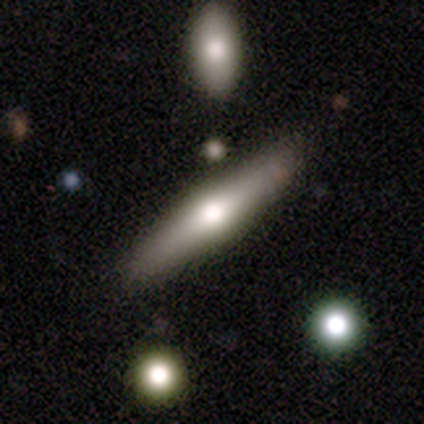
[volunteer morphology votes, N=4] Q: Smooth or featured?
A: featured or disk (75%); runner-up: smooth (25%)
Q: Edge-on disk?
A: yes (100%)
Q: Edge-on bulge?
A: rounded (100%)
Q: Merging?
A: none (75%); runner-up: minor disturbance (25%)